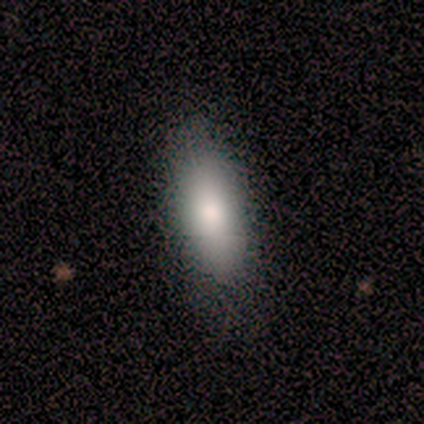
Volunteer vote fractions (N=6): Smooth or featured? smooth (83%)
How rounded? in between (100%)
Merging? none (100%)